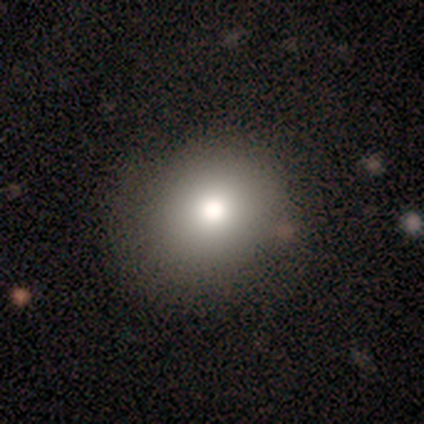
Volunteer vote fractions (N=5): smooth 60%, featured or disk 20%, star or artifact 20%. Down the decision tree: how rounded — round (67%); merging — none (100%).